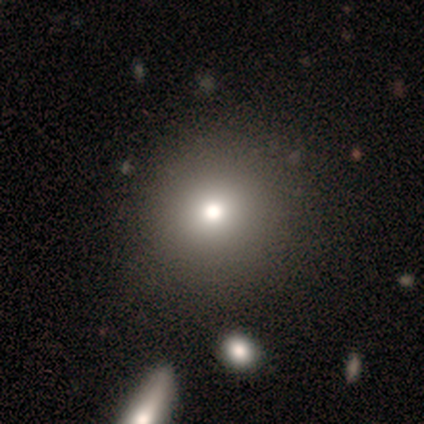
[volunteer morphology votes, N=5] Smooth or featured: smooth — 60% (star or artifact — 40%)
How rounded: round — 67% (in between — 33%)
Merging: none — 100%